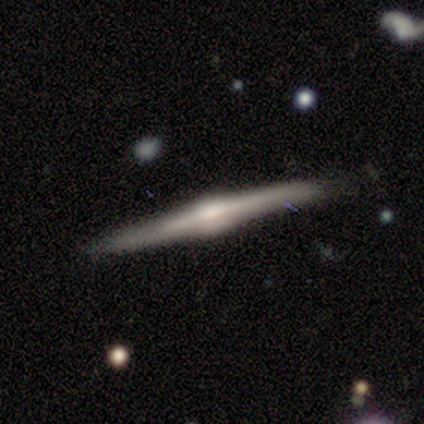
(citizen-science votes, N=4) smooth-or-featured: featured or disk: 100% | smooth: 0% | star or artifact: 0%
  disk-edge-on: yes: 100% | no: 0%
    edge-on-bulge: rounded: 75% | none: 25% | boxy: 0%
  merging: none: 75% | minor disturbance: 25% | major disturbance: 0% | merger: 0%